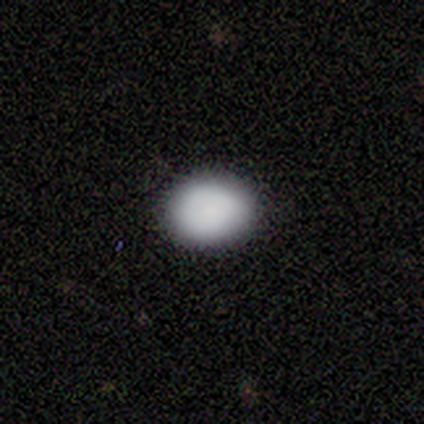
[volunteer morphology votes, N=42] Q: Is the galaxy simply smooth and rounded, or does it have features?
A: smooth — 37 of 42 (88%).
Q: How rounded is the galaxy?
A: in between — 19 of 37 (51%).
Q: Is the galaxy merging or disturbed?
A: none — 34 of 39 (87%).